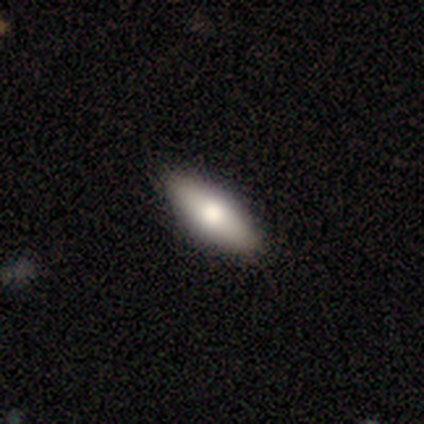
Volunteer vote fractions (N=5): smooth-or-featured: smooth: 100% | featured or disk: 0% | star or artifact: 0%
  how-rounded: in between: 80% | cigar-shaped: 20% | round: 0%
  merging: none: 100% | minor disturbance: 0% | major disturbance: 0% | merger: 0%